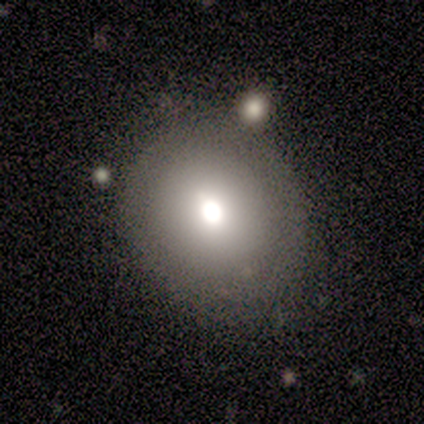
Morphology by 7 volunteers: Volunteers were most divided on "how rounded": round: 57%, in between: 43%, cigar-shaped: 0%. More confident: smooth or featured — smooth (100%); merging — none (71%).